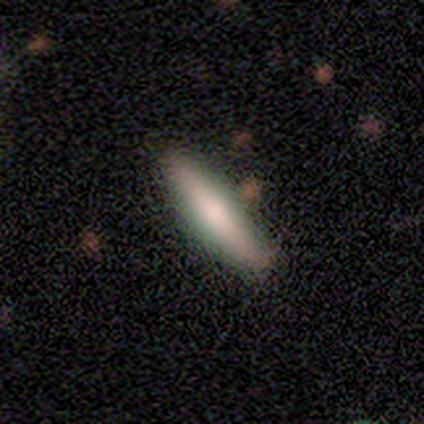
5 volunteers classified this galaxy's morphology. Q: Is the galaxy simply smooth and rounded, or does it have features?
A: smooth — 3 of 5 (60%).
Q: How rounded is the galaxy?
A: cigar-shaped — 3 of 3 (100%).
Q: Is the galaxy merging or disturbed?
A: none — 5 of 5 (100%).